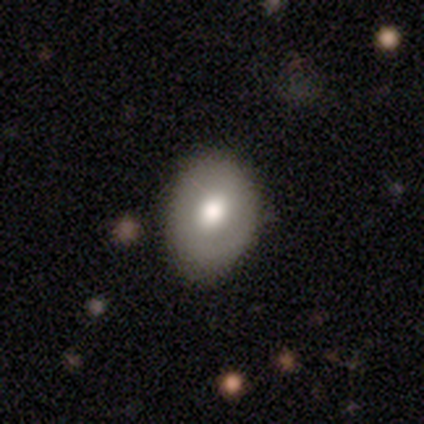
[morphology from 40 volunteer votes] Smooth or featured? 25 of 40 (62%) said smooth. How rounded? 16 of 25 (64%) said in between. Merging? 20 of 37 (54%) said none.